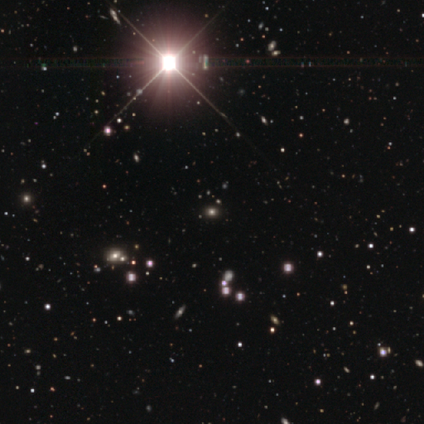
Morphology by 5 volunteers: star or artifact 60%, smooth 40%, featured or disk 0%.